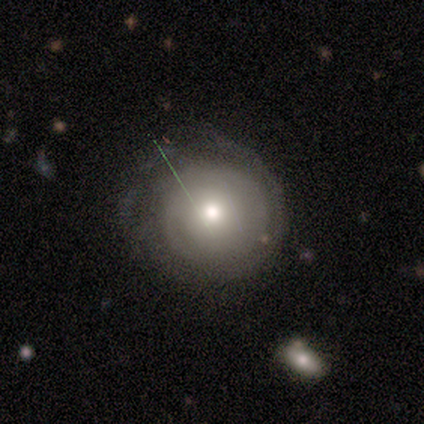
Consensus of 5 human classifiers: Overall: featured or disk (60%; smooth 20%). Edge-on disk: no (100%). Bar: no (100%). Spiral arms: yes (67%; no 33%). Spiral arm count: 3 (50%, tied with can't tell). Spiral winding: tight (100%). Bulge size: large (67%; moderate 33%). Merging: minor disturbance (50%; none 25%).